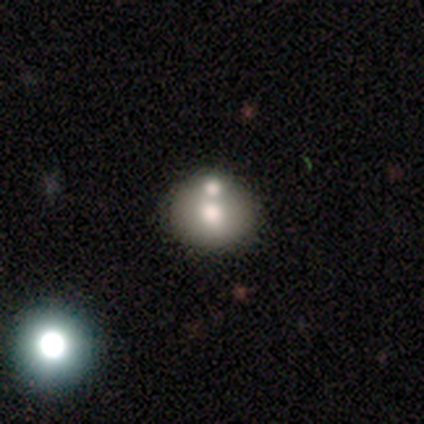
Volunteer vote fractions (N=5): Q: Smooth or featured?
A: smooth (80%); runner-up: featured or disk (20%)
Q: How rounded?
A: round (50%); tied with: in between (50%)
Q: Merging?
A: merger (60%); runner-up: none (40%)